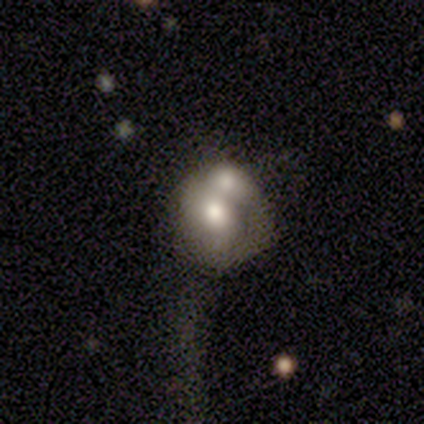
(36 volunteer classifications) smooth_or_featured: smooth (p=0.67) [alt: featured or disk p=0.19]
how_rounded: round (p=0.67) [alt: in between p=0.33]
merging: merger (p=0.58) [alt: none p=0.23]